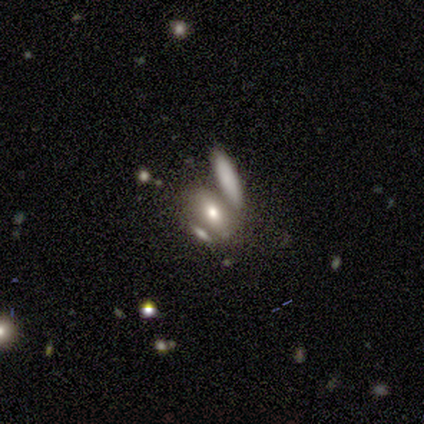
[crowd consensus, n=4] Volunteers were most divided on "merging": none: 50%, minor disturbance: 25%, merger: 25%, major disturbance: 0%. More confident: smooth or featured — smooth (100%); how rounded — in between (75%).